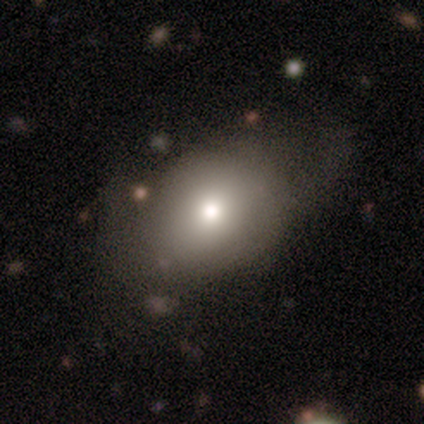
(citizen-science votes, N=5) Overall: smooth (80%). How rounded: in between (100%). Merging: none (75%).